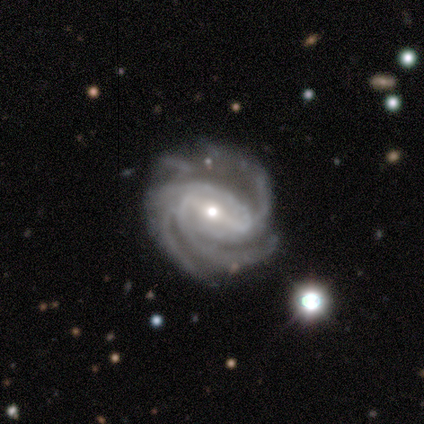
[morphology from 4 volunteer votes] Smooth or featured?
  - featured or disk: 100% *
  - smooth: 0%
  - star or artifact: 0%
Edge-on disk?
  - no: 100% *
  - yes: 0%
Bar?
  - strong: 75% *
  - weak: 25%
  - no: 0%
Spiral arms?
  - yes: 100% *
  - no: 0%
Spiral winding?
  - tight: 100% *
  - medium: 0%
  - loose: 0%
Spiral arm count?
  - 3: 100% *
  - 1: 0%
  - 2: 0%
  - 4: 0%
  - more than 4: 0%
  - can't tell: 0%
Bulge size?
  - small: 75% *
  - moderate: 25%
  - dominant: 0%
  - large: 0%
  - none: 0%
Merging?
  - none: 75% *
  - minor disturbance: 25%
  - major disturbance: 0%
  - merger: 0%